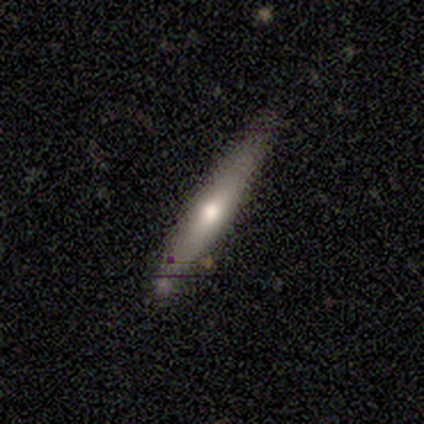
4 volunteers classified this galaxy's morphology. A featured or disk galaxy (75%) viewed edge-on (100%) with no central bulge (67%).

Vote fractions:
- Smooth or featured? featured or disk: 75% / smooth: 25% / star or artifact: 0%
- Edge-on disk? yes: 100% / no: 0%
- Edge-on bulge? none: 67% / rounded: 33% / boxy: 0%
- Merging? none: 100% / minor disturbance: 0% / major disturbance: 0% / merger: 0%